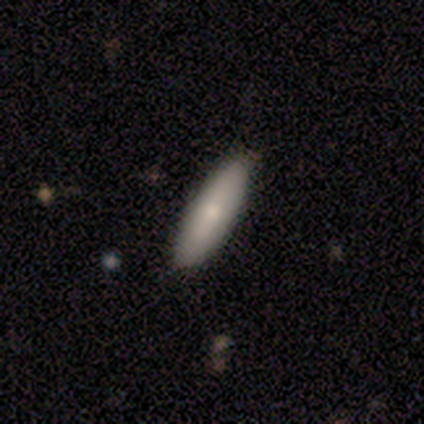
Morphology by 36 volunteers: smooth 69%, featured or disk 22%, star or artifact 8%. Down the decision tree: how rounded — cigar-shaped (64%); merging — none (94%).